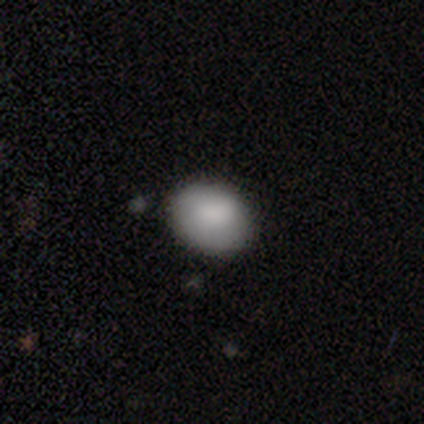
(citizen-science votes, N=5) Smooth or featured: smooth — 100%
How rounded: in between — 100%
Merging: none — 80% (minor disturbance — 20%)